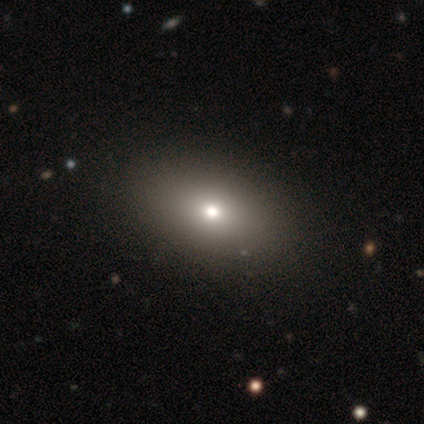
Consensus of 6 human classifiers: Smooth or featured? 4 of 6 (67%) said smooth. How rounded? 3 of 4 (75%) said in between. Merging? 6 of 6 (100%) said none.